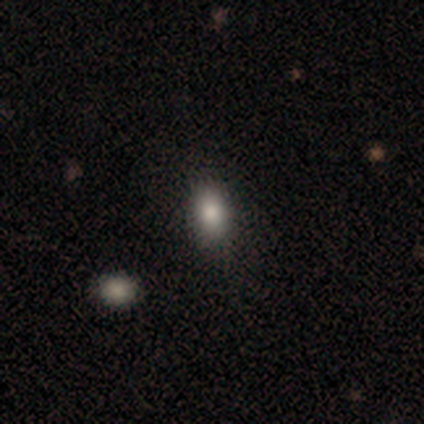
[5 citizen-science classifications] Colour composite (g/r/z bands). It shows a smooth galaxy with no disk features (100%) that is in between round and cigar-shaped (60%). Merging: none (80%).